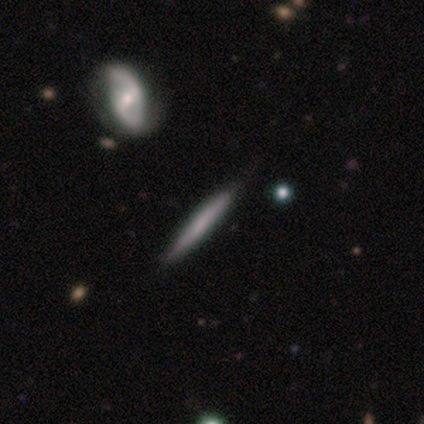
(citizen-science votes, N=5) smooth-or-featured: featured or disk: 80% | smooth: 20% | star or artifact: 0%
  disk-edge-on: yes: 100% | no: 0%
    edge-on-bulge: none: 75% | boxy: 25% | rounded: 0%
  merging: none: 80% | minor disturbance: 20% | major disturbance: 0% | merger: 0%